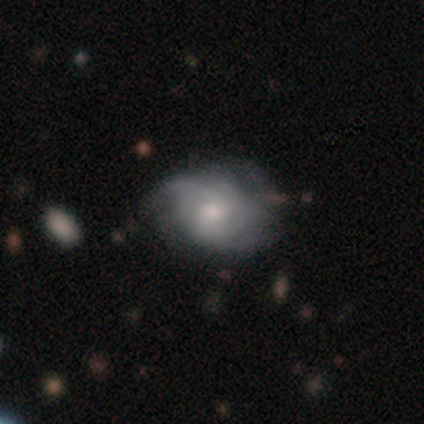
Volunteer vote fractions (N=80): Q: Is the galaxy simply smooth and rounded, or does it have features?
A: featured or disk — 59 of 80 (74%).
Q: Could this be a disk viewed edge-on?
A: no — 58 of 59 (98%).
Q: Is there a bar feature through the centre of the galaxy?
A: no — 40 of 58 (69%).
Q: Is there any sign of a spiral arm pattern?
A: yes — 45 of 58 (78%).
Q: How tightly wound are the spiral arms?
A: tight — 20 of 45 (44%).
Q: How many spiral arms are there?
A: can't tell — 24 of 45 (53%).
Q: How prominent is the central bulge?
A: moderate — 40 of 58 (69%).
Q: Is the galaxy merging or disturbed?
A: none — 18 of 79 (23%).